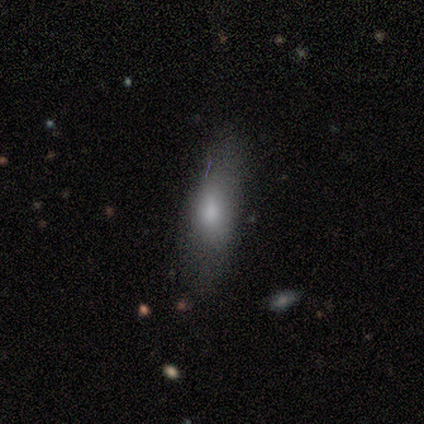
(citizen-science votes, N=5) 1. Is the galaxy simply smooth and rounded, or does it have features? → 80% smooth, 20% featured or disk, 0% star or artifact.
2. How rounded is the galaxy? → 75% in between, 25% cigar-shaped, 0% round.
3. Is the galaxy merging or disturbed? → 100% none, 0% minor disturbance, 0% major disturbance, 0% merger.